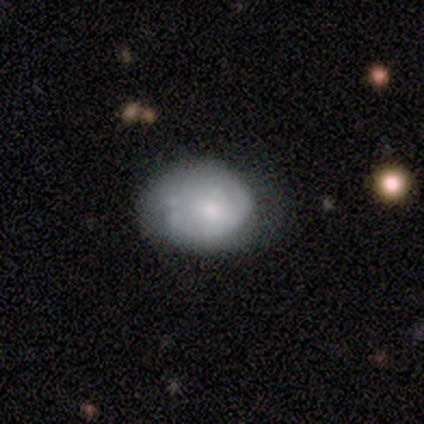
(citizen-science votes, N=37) Smooth or featured: featured or disk — 57% (smooth — 41%)
Edge-on disk: no — 100%
Bar: no — 71% (weak — 29%)
Spiral arms: yes — 62% (no — 38%)
Spiral winding: tight — 54% (medium — 38%)
Spiral arm count: 1 — 54% (can't tell — 31%)
Bulge size: moderate — 48% (small — 43%)
Merging: none — 56% (minor disturbance — 22%)